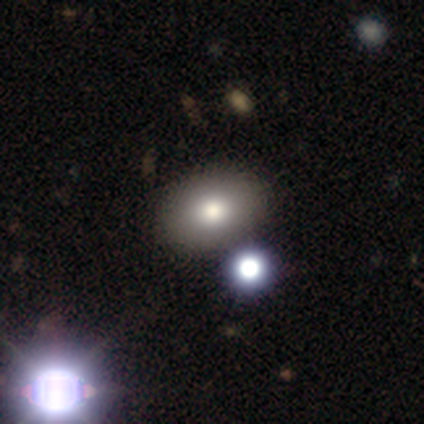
Overall: smooth (80%). How rounded: round (50%, tied with in between). Merging: none (75%).